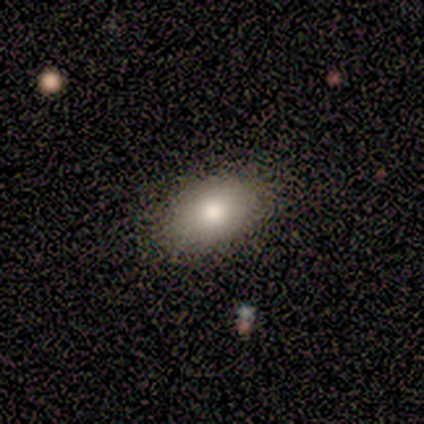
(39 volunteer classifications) smooth 72%, featured or disk 15%, star or artifact 13%. Down the decision tree: how rounded — in between (82%); merging — none (85%).